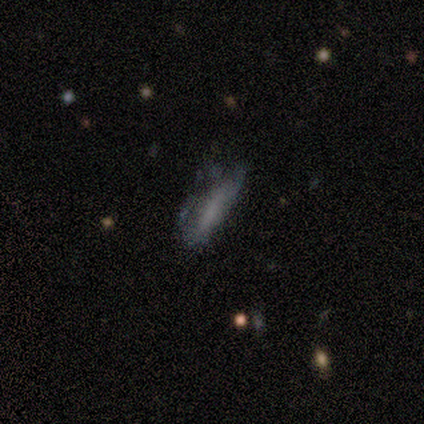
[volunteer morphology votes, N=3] This appears to be a smooth galaxy with no disk features (67%) that is in between round and cigar-shaped (50%, tied with cigar-shaped). Merging: minor disturbance (100%).